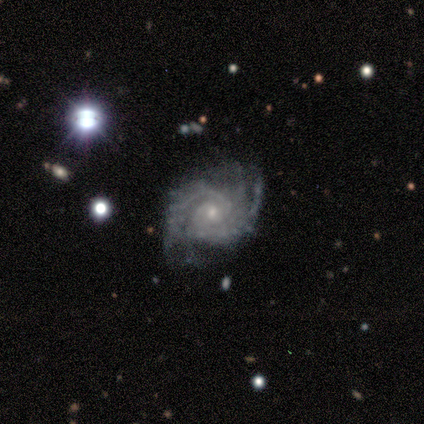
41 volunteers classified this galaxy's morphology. Smooth or featured? 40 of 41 (98%) said featured or disk. Edge-on disk? 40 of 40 (100%) said no. Bar? 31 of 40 (78%) said no. Spiral arms? 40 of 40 (100%) said yes. Spiral winding? 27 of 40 (68%) said tight. Spiral arm count? 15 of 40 (38%) said 2. Bulge size? 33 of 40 (82%) said small. Merging? 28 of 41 (68%) said none.